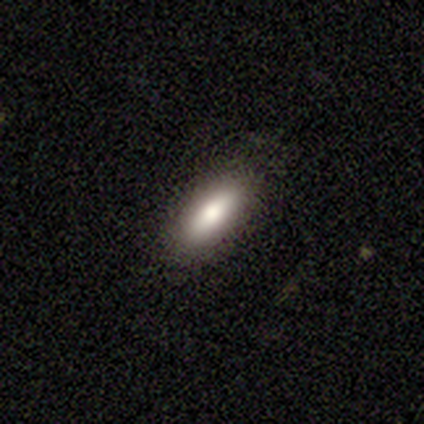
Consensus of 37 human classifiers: Q: Smooth or featured?
A: smooth (73%); runner-up: featured or disk (22%)
Q: How rounded?
A: in between (70%); runner-up: cigar-shaped (30%)
Q: Merging?
A: none (83%); runner-up: minor disturbance (17%)